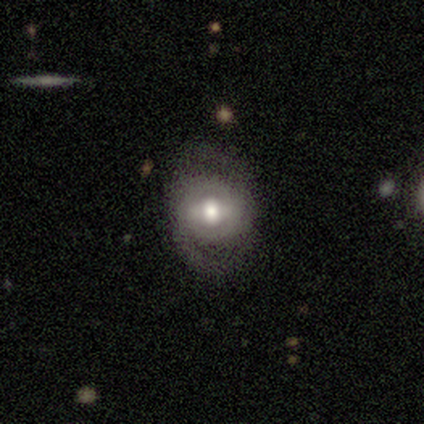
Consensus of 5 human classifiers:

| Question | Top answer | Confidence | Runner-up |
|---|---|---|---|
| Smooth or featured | featured or disk | 100% | — |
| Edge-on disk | no | 100% | — |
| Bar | weak | 40% | tied: no (40%) |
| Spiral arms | yes | 80% | no (20%) |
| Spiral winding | medium | 50% | tight (25%) |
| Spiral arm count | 2 | 75% | can't tell (25%) |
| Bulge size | moderate | 80% | large (20%) |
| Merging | none | 100% | — |